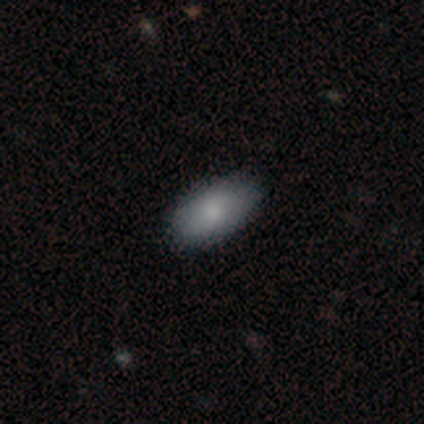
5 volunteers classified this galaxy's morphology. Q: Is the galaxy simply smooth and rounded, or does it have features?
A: smooth — 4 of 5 (80%).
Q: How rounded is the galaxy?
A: in between — 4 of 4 (100%).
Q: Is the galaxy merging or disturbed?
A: none — 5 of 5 (100%).